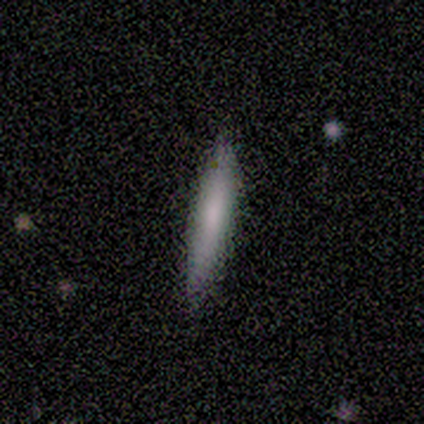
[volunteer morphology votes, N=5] This appears to be a featured or disk galaxy (60%) viewed edge-on (100%) with no central bulge (100%). Merging: none (100%).